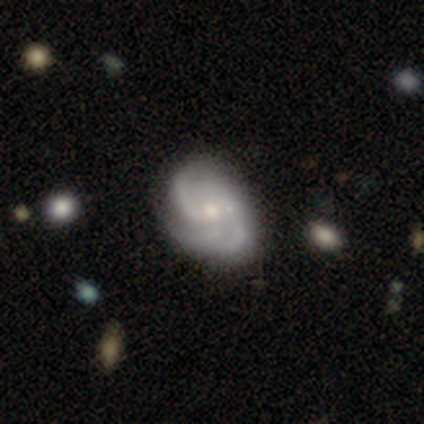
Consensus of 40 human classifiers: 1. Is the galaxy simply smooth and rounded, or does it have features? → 85% featured or disk, 10% smooth, 5% star or artifact.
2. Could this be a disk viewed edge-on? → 100% no, 0% yes.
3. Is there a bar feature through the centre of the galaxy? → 56% no, 35% weak, 9% strong.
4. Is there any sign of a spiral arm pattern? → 94% yes, 6% no.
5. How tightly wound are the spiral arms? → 66% medium, 22% tight, 12% loose.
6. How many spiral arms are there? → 56% 2, 25% 3, 9% 4, 9% can't tell, 0% 1, 0% more than 4.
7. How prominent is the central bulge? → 53% moderate, 29% small, 9% large, 9% none, 0% dominant.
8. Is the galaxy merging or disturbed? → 37% none, 24% minor disturbance, 16% major disturbance, 3% merger.